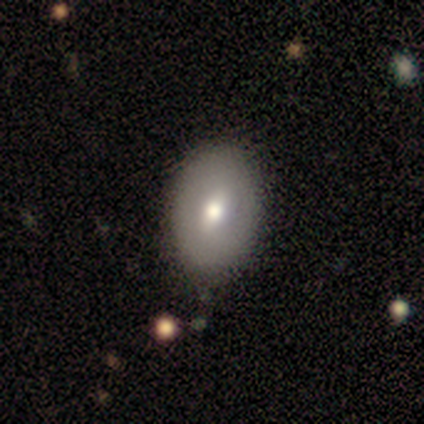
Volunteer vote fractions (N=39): Smooth or featured? 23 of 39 (59%) said smooth. How rounded? 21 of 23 (91%) said in between. Merging? 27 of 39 (69%) said none.